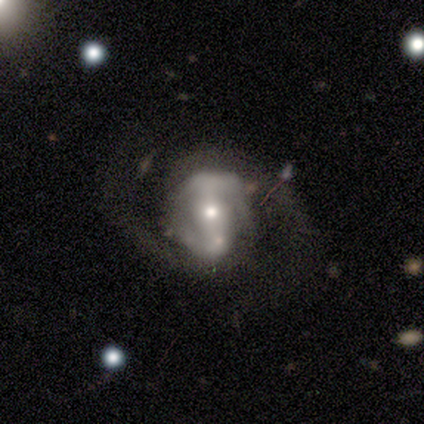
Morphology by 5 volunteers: featured or disk 100%, smooth 0%, star or artifact 0%. Down the decision tree: edge-on disk — no (100%); bar — strong (60%); spiral arms — yes (100%); spiral arm count — 2 (100%); spiral winding — medium (40%, tied with loose); bulge size — moderate (60%); merging — none (60%).